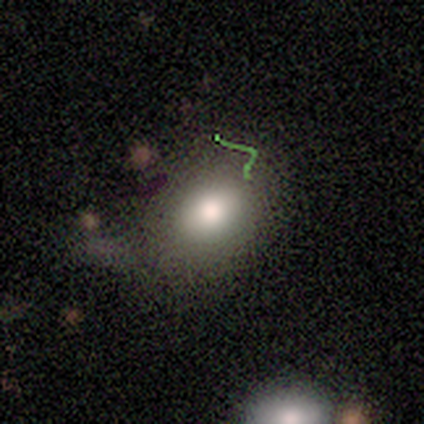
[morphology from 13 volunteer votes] A smooth galaxy with no disk features (62%) that is in between round and cigar-shaped (88%). Merging: none (73%).